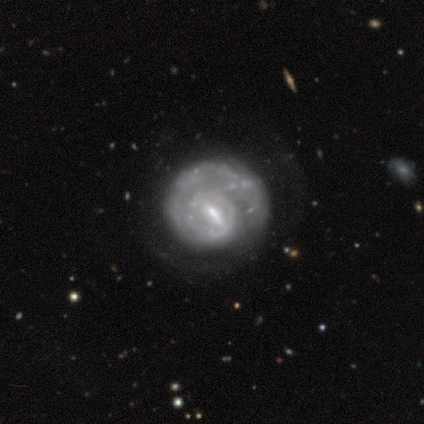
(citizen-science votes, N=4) Smooth or featured: featured or disk — 50% (smooth — 25%)
Edge-on disk: no — 100%
Bar: strong — 50% (tied with weak — 50%)
Spiral arms: yes — 100%
Spiral winding: tight — 50% (tied with loose — 50%)
Spiral arm count: 1 — 50% (tied with 2 — 50%)
Bulge size: small — 50% (tied with none — 50%)
Merging: none — 33% (tied with minor disturbance — 33%; major disturbance — 33%)